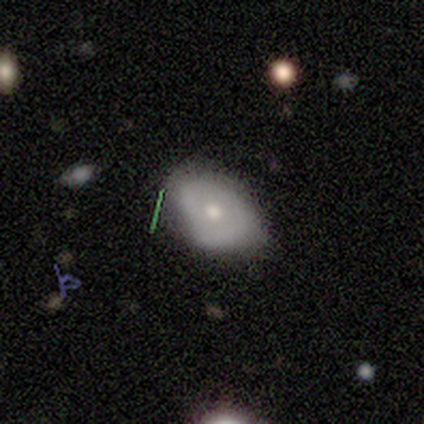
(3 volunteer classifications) smooth-or-featured: featured or disk: 67% | smooth: 33% | star or artifact: 0%
  disk-edge-on: no: 100% | yes: 0%
    bar: weak: 50% (tied) | no: 50% (tied) | strong: 0%
    has-spiral-arms: no: 100% | yes: 0%
    bulge-size: moderate: 50% (tied) | small: 50% (tied) | dominant: 0% | large: 0% | none: 0%
  merging: none: 100% | minor disturbance: 0% | major disturbance: 0% | merger: 0%